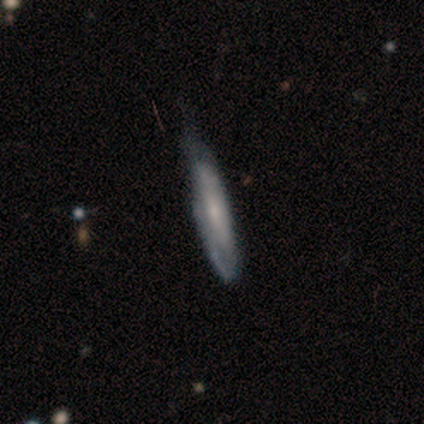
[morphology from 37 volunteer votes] Smooth or featured: featured or disk — 62% (smooth — 30%)
Edge-on disk: yes — 52% (no — 48%)
Edge-on bulge: none — 58% (rounded — 42%)
Merging: none — 35% (minor disturbance — 29%)